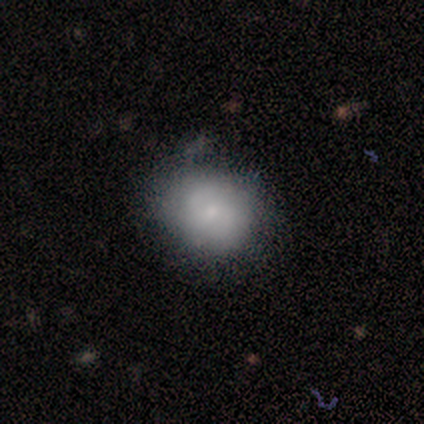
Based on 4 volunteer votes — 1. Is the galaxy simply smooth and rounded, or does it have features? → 75% smooth, 25% featured or disk, 0% star or artifact.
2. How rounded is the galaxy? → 100% round, 0% in between, 0% cigar-shaped.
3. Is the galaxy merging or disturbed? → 75% none, 25% minor disturbance, 0% major disturbance, 0% merger.